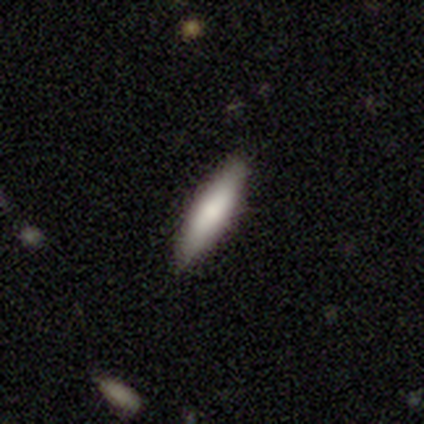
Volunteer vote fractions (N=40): Overall: smooth (80%). How rounded: cigar-shaped (75%). Merging: none (90%).